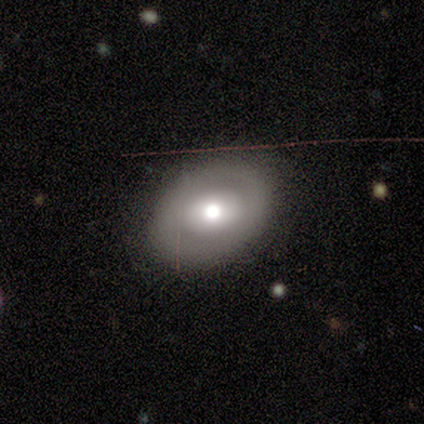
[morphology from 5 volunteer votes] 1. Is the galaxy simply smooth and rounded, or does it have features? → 40% smooth (tied), 40% featured or disk (tied), 20% star or artifact.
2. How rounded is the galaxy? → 50% round (tied), 50% in between (tied), 0% cigar-shaped.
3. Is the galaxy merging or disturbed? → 50% none (tied), 50% major disturbance (tied), 0% minor disturbance, 0% merger.